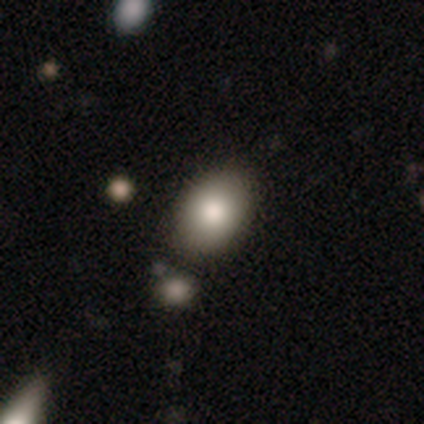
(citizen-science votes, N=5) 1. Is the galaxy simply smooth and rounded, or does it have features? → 80% smooth, 20% star or artifact, 0% featured or disk.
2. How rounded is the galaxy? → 100% in between, 0% round, 0% cigar-shaped.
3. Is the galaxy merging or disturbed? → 100% none, 0% minor disturbance, 0% major disturbance, 0% merger.